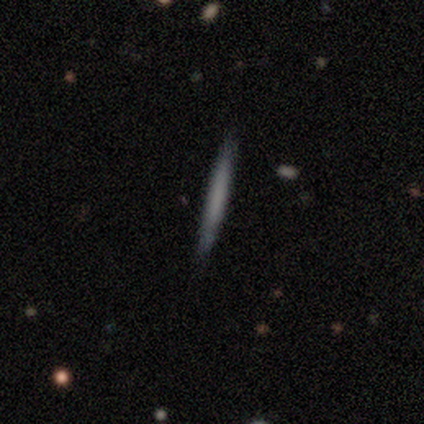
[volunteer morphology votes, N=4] smooth-or-featured: smooth: 75% | featured or disk: 25% | star or artifact: 0%
  how-rounded: cigar-shaped: 100% | round: 0% | in between: 0%
  merging: none: 75% | minor disturbance: 25% | major disturbance: 0% | merger: 0%